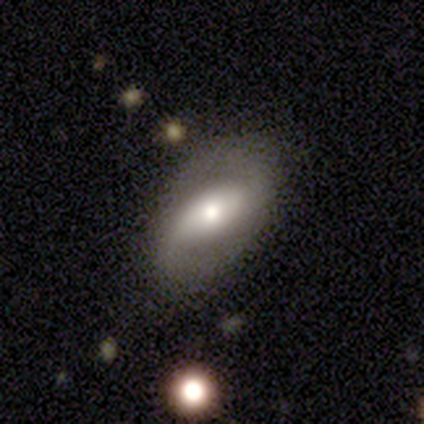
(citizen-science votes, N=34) A featured or disk galaxy (68%) with a strong bar (43%), 2 (88%) medium (50%) spiral arms (76%) and a moderate central bulge (48%). Merging: none (79%).